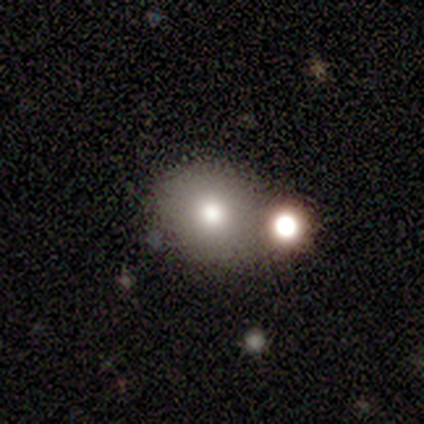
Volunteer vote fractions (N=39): Q: Smooth or featured?
A: smooth (72%); runner-up: featured or disk (18%)
Q: How rounded?
A: round (86%); runner-up: in between (14%)
Q: Merging?
A: none (51%); runner-up: merger (29%)